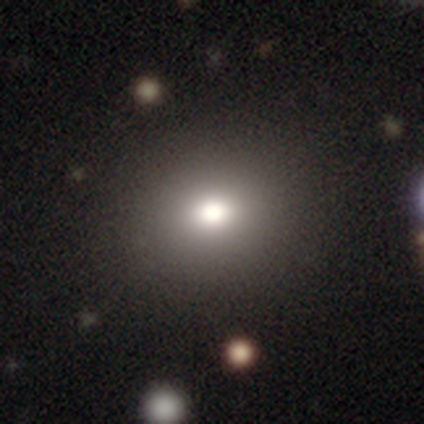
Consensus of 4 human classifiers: Smooth or featured? star or artifact (50%)